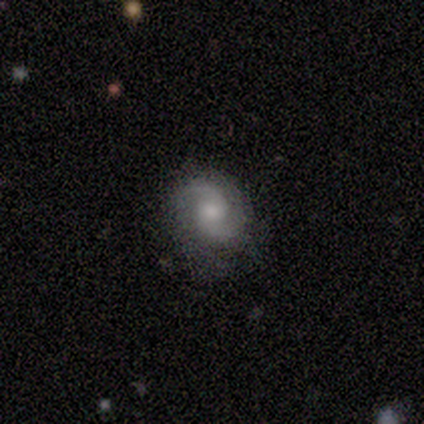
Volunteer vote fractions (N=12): Overall: featured or disk (75%). Edge-on disk: no (100%). Bar: no (89%). Spiral arms: yes (100%). Spiral arm count: 2 (100%). Spiral winding: tight (33%, tied with medium and loose). Bulge size: moderate (78%). Merging: none (64%; minor disturbance 27%).